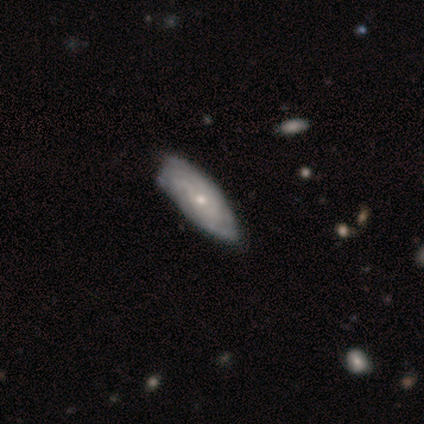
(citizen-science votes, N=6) smooth-or-featured: featured or disk: 67% | smooth: 17% | star or artifact: 17%
  disk-edge-on: no: 100% | yes: 0%
    bar: no: 75% | weak: 25% | strong: 0%
    has-spiral-arms: no: 75% | yes: 25%
    bulge-size: moderate: 50% (tied) | small: 50% (tied) | dominant: 0% | large: 0% | none: 0%
  merging: none: 80% | minor disturbance: 20% | major disturbance: 0% | merger: 0%